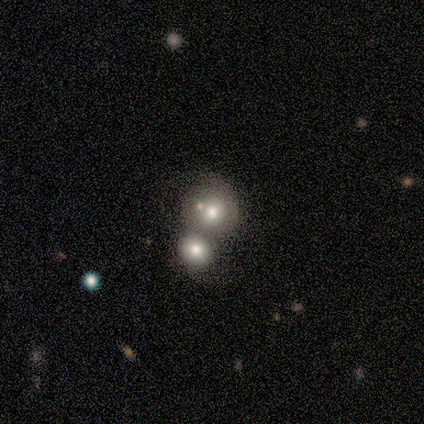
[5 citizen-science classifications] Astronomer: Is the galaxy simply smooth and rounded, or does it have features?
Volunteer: smooth — 60%.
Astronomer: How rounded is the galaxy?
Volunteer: round — 100%.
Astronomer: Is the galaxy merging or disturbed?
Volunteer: none — 50%, tied with merger at 50%.